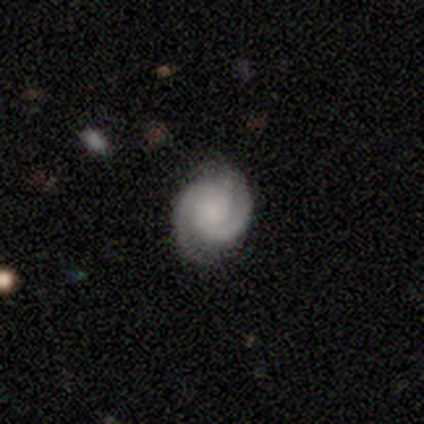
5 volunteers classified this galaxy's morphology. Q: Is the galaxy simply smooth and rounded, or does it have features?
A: featured or disk — 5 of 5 (100%).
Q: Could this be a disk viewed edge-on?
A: no — 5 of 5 (100%).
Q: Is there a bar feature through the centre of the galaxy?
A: no — 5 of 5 (100%).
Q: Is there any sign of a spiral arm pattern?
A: yes — 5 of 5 (100%).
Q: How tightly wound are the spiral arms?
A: tight — 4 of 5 (80%).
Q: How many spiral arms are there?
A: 2 — 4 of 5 (80%).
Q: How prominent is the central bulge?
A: small — 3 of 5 (60%).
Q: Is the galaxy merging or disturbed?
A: none — 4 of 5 (80%).